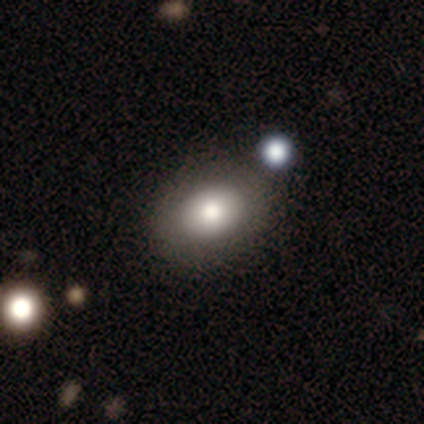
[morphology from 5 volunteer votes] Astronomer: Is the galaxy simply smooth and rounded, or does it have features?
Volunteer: smooth — 100%.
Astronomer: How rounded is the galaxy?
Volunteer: in between — 60% (runner-up: round, 40%).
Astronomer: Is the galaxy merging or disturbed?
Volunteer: none — 80%.